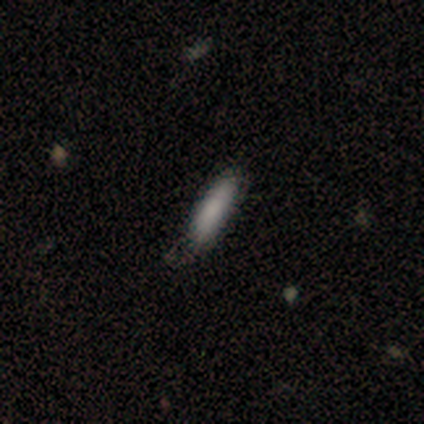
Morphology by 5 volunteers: Smooth or featured? 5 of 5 (100%) said smooth. How rounded? 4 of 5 (80%) said cigar-shaped. Merging? 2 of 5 (40%, tied with minor disturbance) said none.